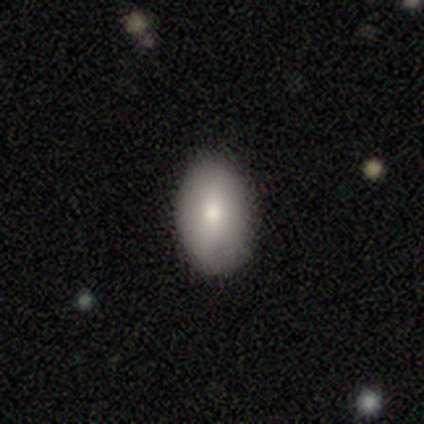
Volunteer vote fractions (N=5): Morphology: type=smooth (60%); roundness=in between (100%); merging=none (100%).